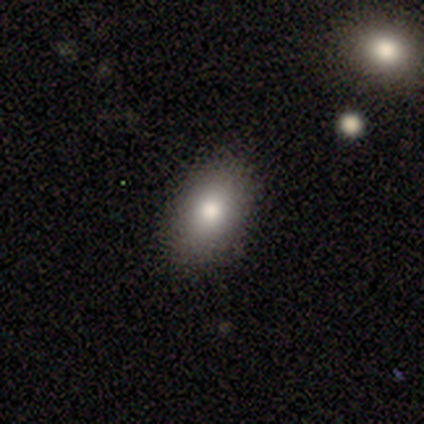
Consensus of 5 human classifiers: Overall: smooth (100%). How rounded: in between (80%). Merging: none (80%).